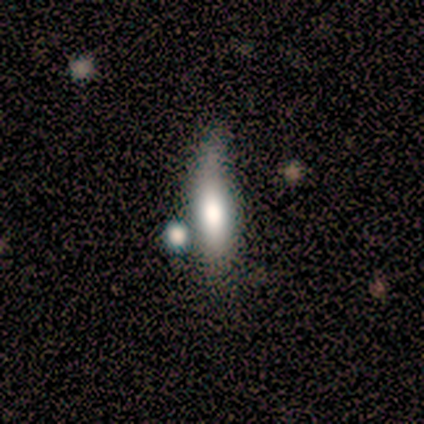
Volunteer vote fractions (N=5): smooth_or_featured: smooth (p=0.40) [tied with: featured or disk p=0.40]
how_rounded: round (p=0.50) [tied with: cigar-shaped p=0.50]
merging: none (p=1.00)